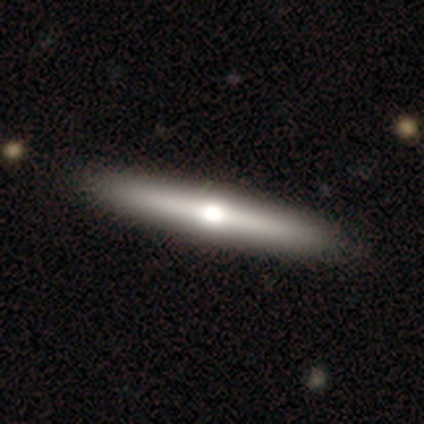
A featured or disk galaxy (50%) viewed edge-on (95%) with a rounded central bulge (95%).

Vote fractions:
- Smooth or featured? featured or disk: 50% / smooth: 48% / star or artifact: 2%
- Edge-on disk? yes: 95% / no: 5%
- Edge-on bulge? rounded: 95% / none: 5% / boxy: 0%
- Merging? none: 72% / minor disturbance: 3% / major disturbance: 3% / merger: 0%